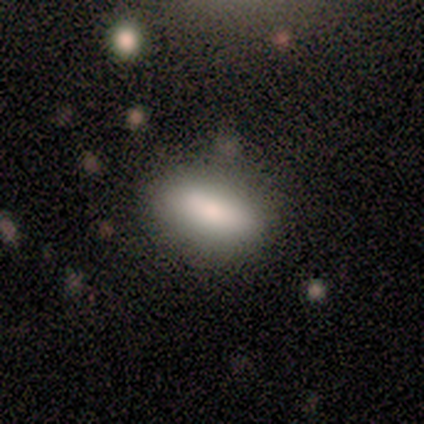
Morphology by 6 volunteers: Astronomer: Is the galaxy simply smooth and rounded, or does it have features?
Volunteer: smooth — 67%.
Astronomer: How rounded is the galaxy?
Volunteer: in between — 100%.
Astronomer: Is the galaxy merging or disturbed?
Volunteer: none — 80%.